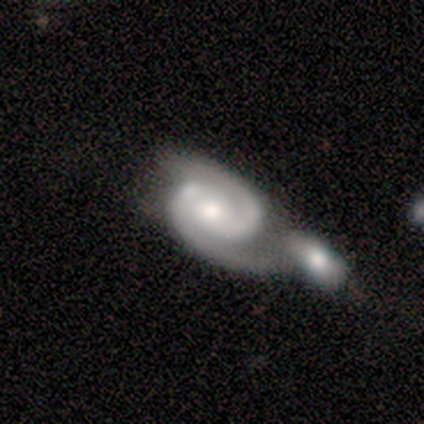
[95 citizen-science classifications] A featured or disk galaxy (92%) with no bar (51%), 2 (98%) tight (49%) spiral arms (99%) and a moderate central bulge (64%).

Vote fractions:
- Smooth or featured? featured or disk: 92% / star or artifact: 6% / smooth: 2%
- Edge-on disk? no: 99% / yes: 1%
- Bar? no: 51% / weak: 34% / strong: 15%
- Spiral arms? yes: 99% / no: 1%
- Spiral winding? tight: 49% / medium: 47% / loose: 4%
- Spiral arm count? 2: 98% / 3: 1% / can't tell: 1% / 1: 0% / 4: 0% / more than 4: 0%
- Bulge size? moderate: 64% / large: 15% / small: 15% / dominant: 5% / none: 1%
- Merging? merger: 69% / none: 16% / minor disturbance: 12% / major disturbance: 3%